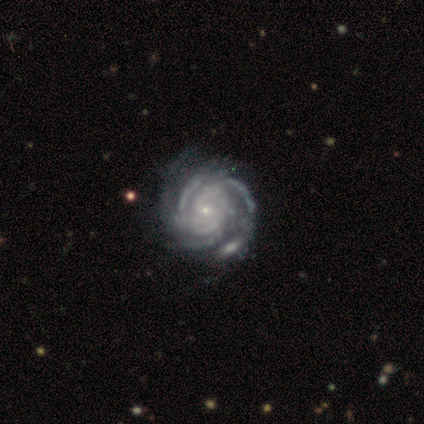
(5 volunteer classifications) A featured or disk galaxy (100%) with no bar (100%), 2 (50%) tight (75%) spiral arms (80%) and a small central bulge (80%). Merging: none (60%).